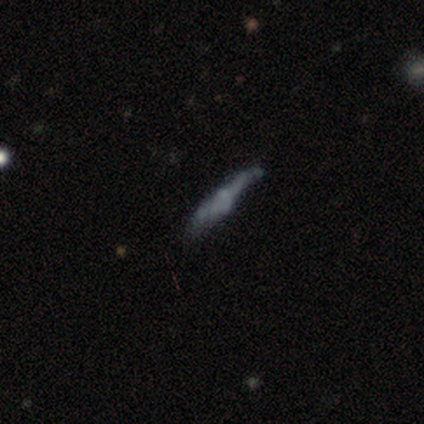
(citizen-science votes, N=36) Overall: featured or disk (56%; smooth 36%). Edge-on disk: yes (55%; no 45%). Edge-on bulge: rounded (55%; none 27%). Merging: none (58%; minor disturbance 21%).